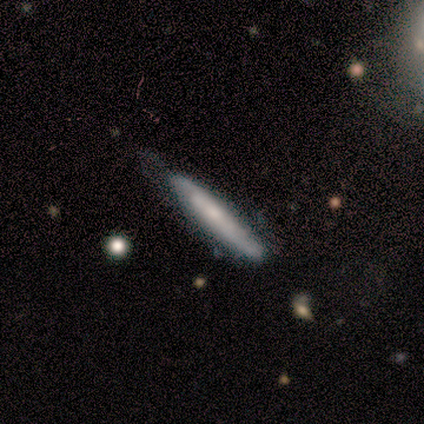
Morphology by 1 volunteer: A smooth galaxy with no disk features (100%) that is cigar-shaped (100%).

Vote fractions:
- Smooth or featured? smooth: 100% / featured or disk: 0% / star or artifact: 0%
- How rounded? cigar-shaped: 100% / round: 0% / in between: 0%
- Merging? none: 100% / minor disturbance: 0% / major disturbance: 0% / merger: 0%